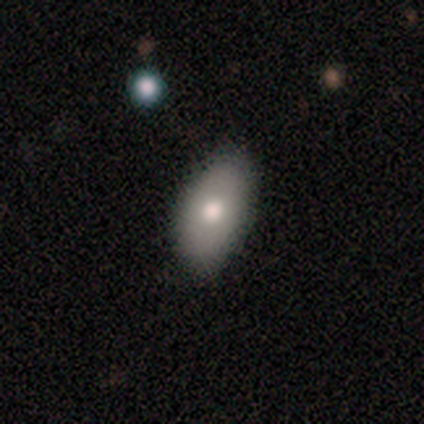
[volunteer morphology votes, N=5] Smooth or featured? smooth (60%)
How rounded? in between (100%)
Merging? none (60%)